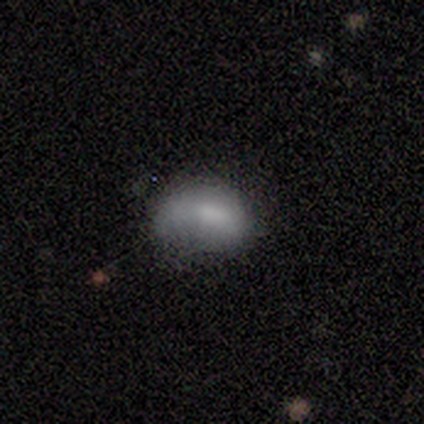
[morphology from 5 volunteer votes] This appears to be a smooth galaxy with no disk features (60%) that is in between round and cigar-shaped (100%). Merging: minor disturbance (50%, tied with major disturbance).